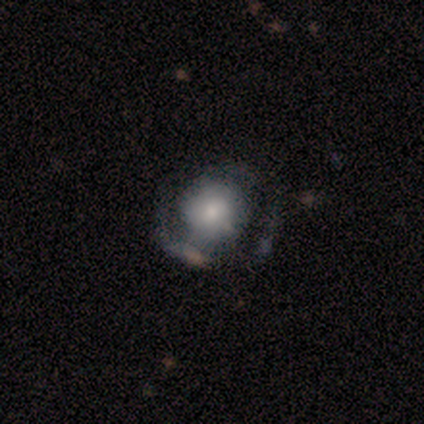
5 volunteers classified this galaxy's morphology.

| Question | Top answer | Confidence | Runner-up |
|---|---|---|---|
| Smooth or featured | featured or disk | 80% | smooth (20%) |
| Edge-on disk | no | 100% | — |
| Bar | no | 50% | strong (25%) |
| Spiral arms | yes | 100% | — |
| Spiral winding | medium | 75% | tight (25%) |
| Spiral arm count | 2 | 75% | 1 (25%) |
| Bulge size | large | 50% | moderate (25%) |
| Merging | none | 80% | minor disturbance (20%) |